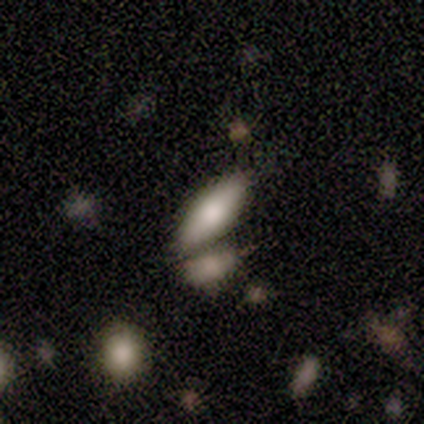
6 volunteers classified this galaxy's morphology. A smooth galaxy with no disk features (83%) that is in between round and cigar-shaped (80%).

Vote fractions:
- Smooth or featured? smooth: 83% / featured or disk: 17% / star or artifact: 0%
- How rounded? in between: 80% / cigar-shaped: 20% / round: 0%
- Merging? minor disturbance: 50% / merger: 33% / none: 17% / major disturbance: 0%